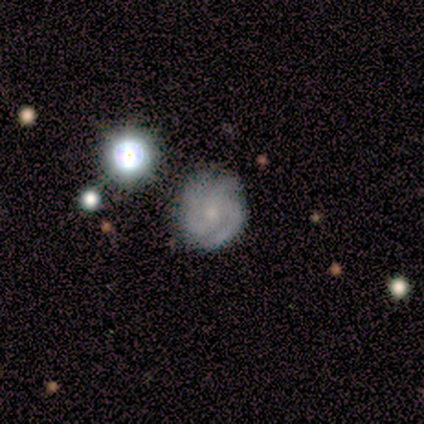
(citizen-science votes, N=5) Smooth or featured?
  - featured or disk: 80% *
  - smooth: 20%
  - star or artifact: 0%
Edge-on disk?
  - no: 100% *
  - yes: 0%
Bar?
  - no: 75% *
  - weak: 25%
  - strong: 0%
Spiral arms?
  - yes: 100% *
  - no: 0%
Spiral winding?
  - medium: 75% *
  - loose: 25%
  - tight: 0%
Spiral arm count?
  - 3: 75% *
  - 4: 25%
  - 1: 0%
  - 2: 0%
  - more than 4: 0%
  - can't tell: 0%
Bulge size?
  - small: 75% *
  - moderate: 25%
  - dominant: 0%
  - large: 0%
  - none: 0%
Merging?
  - none: 100% *
  - minor disturbance: 0%
  - major disturbance: 0%
  - merger: 0%